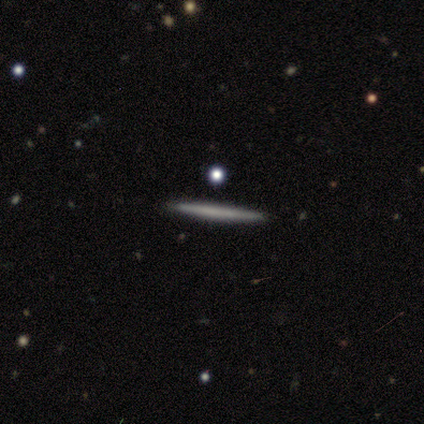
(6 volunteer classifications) Smooth or featured? 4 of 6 (67%) said smooth. How rounded? 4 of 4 (100%) said cigar-shaped. Merging? 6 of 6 (100%) said none.